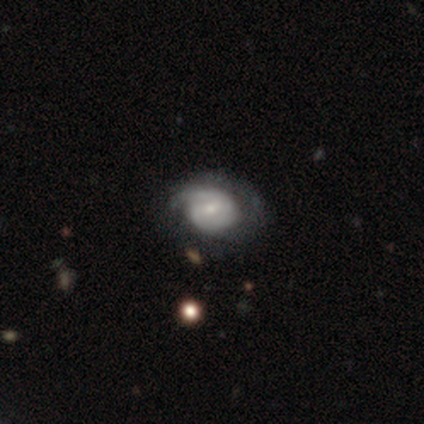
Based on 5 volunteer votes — featured or disk 60%, smooth 20%, star or artifact 20%. Down the decision tree: edge-on disk — no (100%); bar — no (67%); spiral arms — no (67%); bulge size — small (67%); merging — minor disturbance (50%).